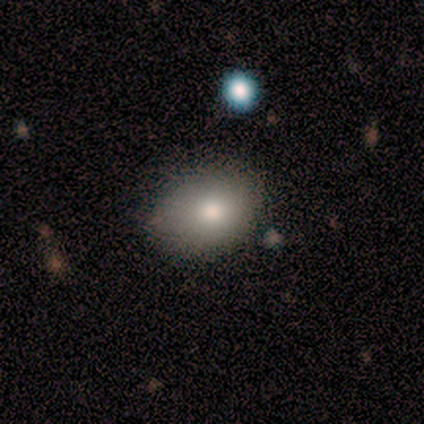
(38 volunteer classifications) smooth-or-featured: smooth: 87% | star or artifact: 13% | featured or disk: 0%
  how-rounded: in between: 70% | round: 30% | cigar-shaped: 0%
  merging: none: 73% | minor disturbance: 21% | major disturbance: 6% | merger: 0%